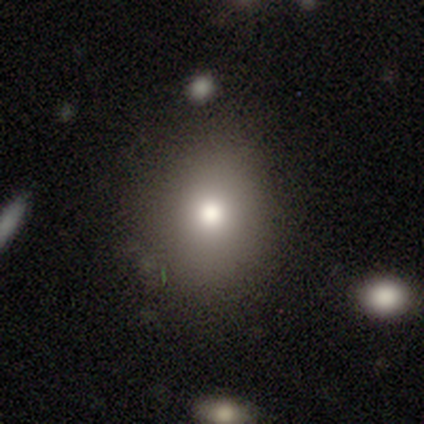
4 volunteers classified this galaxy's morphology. Smooth or featured? 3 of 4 (75%) said smooth. How rounded? 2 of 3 (67%) said in between. Merging? 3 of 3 (100%) said none.